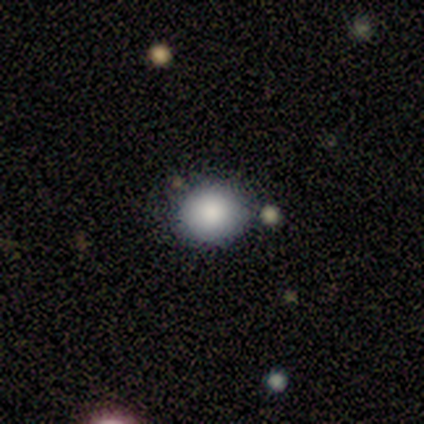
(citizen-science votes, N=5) Smooth or featured? 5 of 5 (100%) said smooth. How rounded? 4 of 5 (80%) said round. Merging? 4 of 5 (80%) said none.